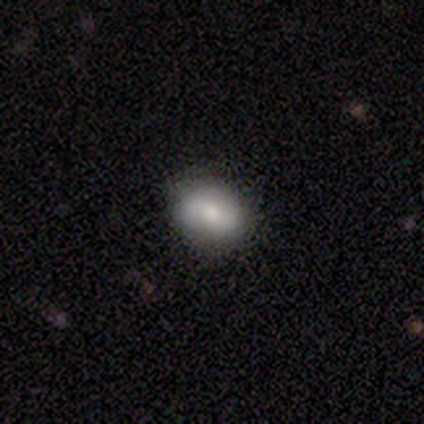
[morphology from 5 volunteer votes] Overall: smooth (100%). How rounded: in between (60%; round 40%). Merging: none (100%).